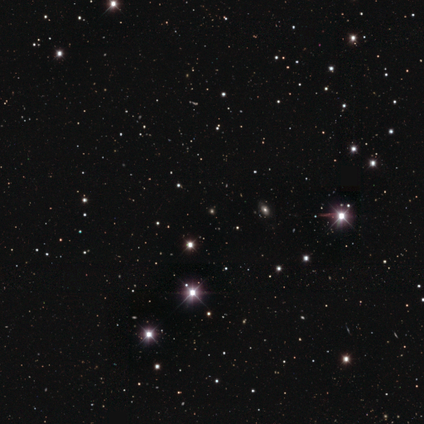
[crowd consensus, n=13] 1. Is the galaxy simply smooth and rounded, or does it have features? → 100% star or artifact, 0% smooth, 0% featured or disk.